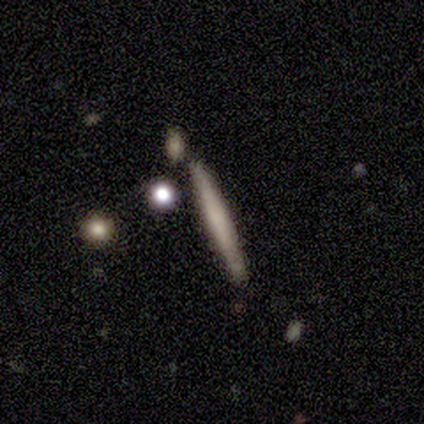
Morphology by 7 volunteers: Overall: smooth (71%). How rounded: cigar-shaped (100%). Merging: none (100%).